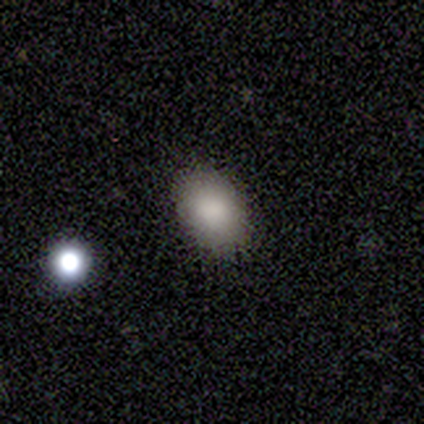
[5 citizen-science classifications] Overall: smooth (100%). How rounded: in between (100%). Merging: none (100%).